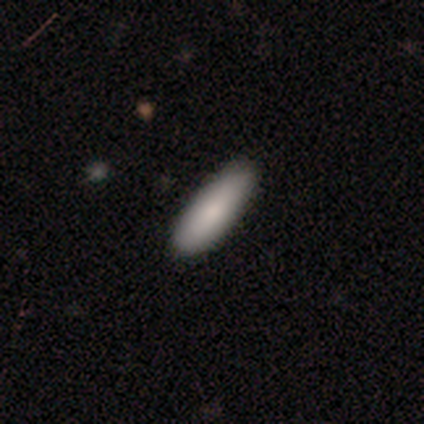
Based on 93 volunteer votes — smooth 90%, featured or disk 5%, star or artifact 4%. Down the decision tree: how rounded — cigar-shaped (64%); merging — none (83%).